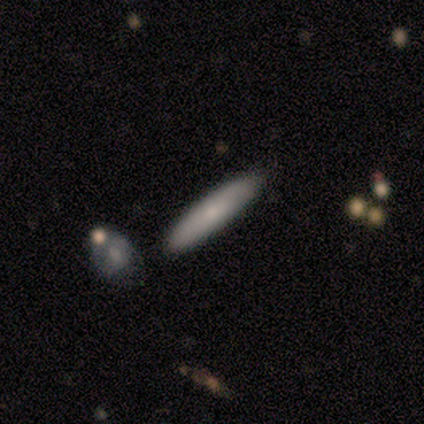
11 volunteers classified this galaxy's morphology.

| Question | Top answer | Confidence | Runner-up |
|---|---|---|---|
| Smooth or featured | smooth | 73% | featured or disk (18%) |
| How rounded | cigar-shaped | 62% | in between (38%) |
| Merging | none | 80% | minor disturbance (20%) |